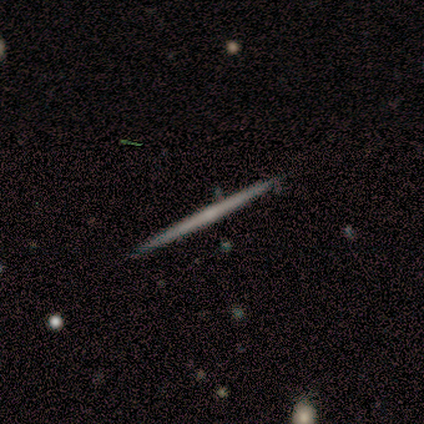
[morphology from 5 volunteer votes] smooth 60%, featured or disk 40%, star or artifact 0%. Down the decision tree: how rounded — cigar-shaped (100%); merging — none (100%).